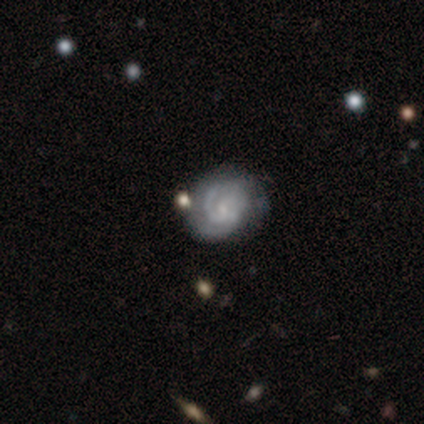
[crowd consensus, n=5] Smooth or featured? featured or disk (80%)
Edge-on disk? no (100%)
Bar? no (75%)
Spiral arms? yes (100%)
Spiral winding? tight (50%, tied with loose)
Spiral arm count? 1 (50%, tied with 2)
Bulge size? small (75%)
Merging? none (80%)